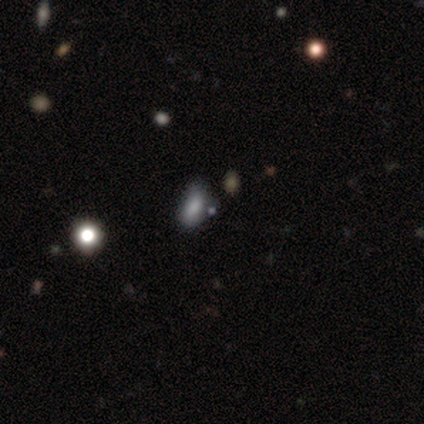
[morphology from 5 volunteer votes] Overall: smooth (80%). How rounded: in between (100%). Merging: none (75%).